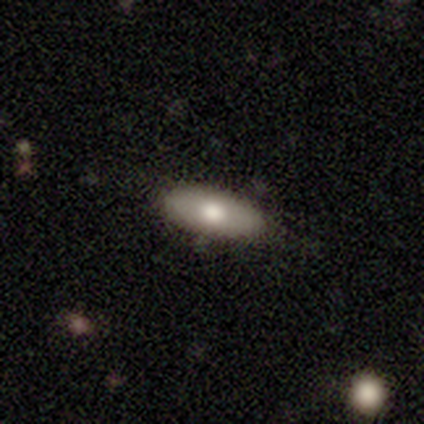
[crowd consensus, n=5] featured or disk 60%, smooth 40%, star or artifact 0%. Down the decision tree: edge-on disk — yes (67%); edge-on bulge — boxy (50%, tied with rounded); merging — none (100%).